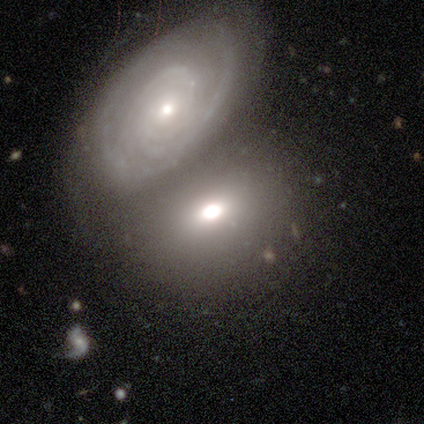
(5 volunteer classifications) Smooth or featured? featured or disk (60%)
Edge-on disk? no (100%)
Bar? no (100%)
Spiral arms? yes (100%)
Spiral winding? tight (67%)
Spiral arm count? 2 (33%, tied with 3 and can't tell)
Bulge size? small (67%)
Merging? none (60%)